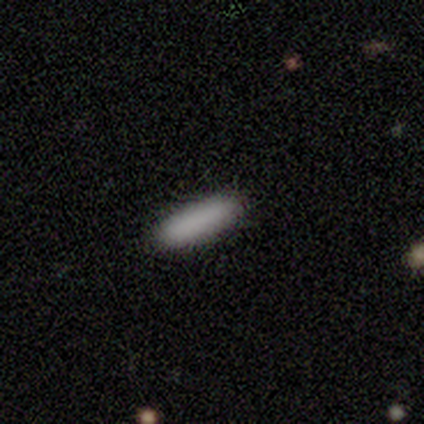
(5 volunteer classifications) smooth 60%, star or artifact 40%, featured or disk 0%. Down the decision tree: how rounded — round (33%, tied with in between and cigar-shaped); merging — none (67%).